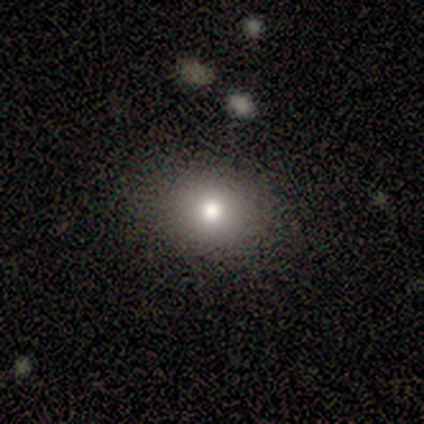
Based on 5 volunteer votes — smooth-or-featured: smooth: 100% | featured or disk: 0% | star or artifact: 0%
  how-rounded: round: 60% | in between: 40% | cigar-shaped: 0%
  merging: none: 80% | minor disturbance: 20% | major disturbance: 0% | merger: 0%